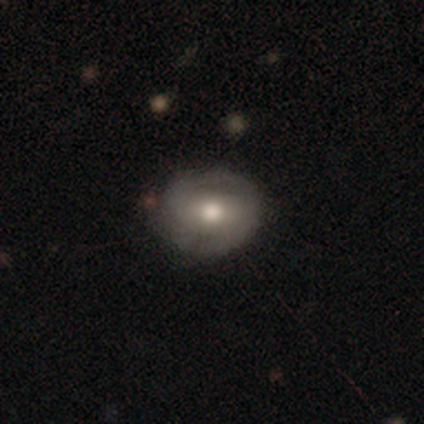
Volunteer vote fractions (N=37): Q: Smooth or featured?
A: smooth (51%); runner-up: featured or disk (46%)
Q: How rounded?
A: round (68%); runner-up: in between (32%)
Q: Merging?
A: none (75%); runner-up: minor disturbance (14%)